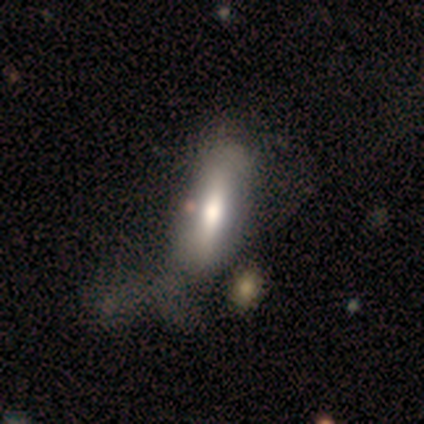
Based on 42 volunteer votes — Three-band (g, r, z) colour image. It shows a smooth galaxy with no disk features (67%) that is in between round and cigar-shaped (68%). Merging: major disturbance (29%).